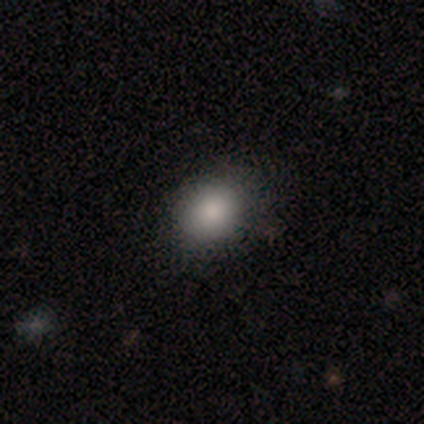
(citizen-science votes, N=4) Smooth or featured? smooth (75%)
How rounded? in between (67%)
Merging? none (75%)